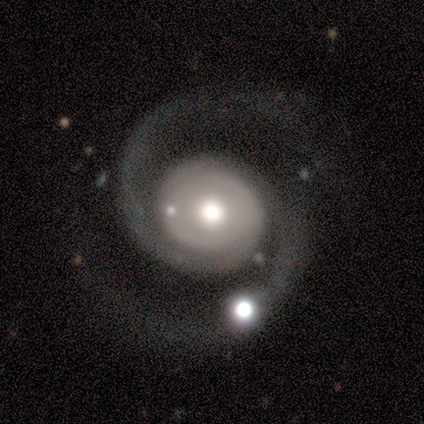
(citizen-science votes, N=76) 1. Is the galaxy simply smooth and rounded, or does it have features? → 92% featured or disk, 5% star or artifact, 3% smooth.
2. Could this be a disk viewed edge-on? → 99% no, 1% yes.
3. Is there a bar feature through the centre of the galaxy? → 94% no, 3% strong, 3% weak.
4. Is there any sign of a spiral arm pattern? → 94% yes, 6% no.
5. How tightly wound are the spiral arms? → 55% medium, 28% tight, 17% loose.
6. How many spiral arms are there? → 100% 2, 0% 1, 0% 3, 0% 4, 0% more than 4, 0% can't tell.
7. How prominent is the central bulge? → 55% moderate, 41% large, 3% dominant, 1% small, 0% none.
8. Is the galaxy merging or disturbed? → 78% none, 11% minor disturbance, 8% major disturbance, 3% merger.